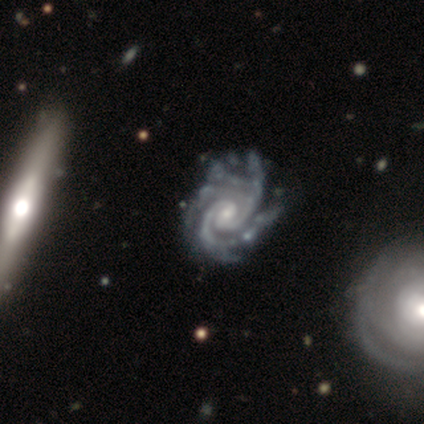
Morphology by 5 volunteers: Q: Smooth or featured?
A: featured or disk (100%)
Q: Edge-on disk?
A: no (100%)
Q: Bar?
A: strong (40%); tied with: no (40%)
Q: Spiral arms?
A: yes (100%)
Q: Spiral winding?
A: tight (60%); runner-up: medium (40%)
Q: Spiral arm count?
A: 2 (20%); tied with: 3 (20%); 4 (20%); more than 4 (20%); can't tell (20%)
Q: Bulge size?
A: moderate (40%); tied with: small (40%)
Q: Merging?
A: none (80%); runner-up: minor disturbance (20%)